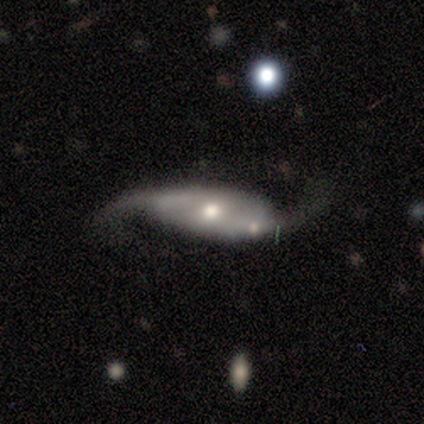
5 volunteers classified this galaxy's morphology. Volunteers were most divided on "merging": none: 60%, merger: 40%, minor disturbance: 0%, major disturbance: 0%. More confident: edge-on disk — no (100%); spiral arms — yes (100%); spiral winding — loose (100%); spiral arm count — 2 (100%); smooth or featured — featured or disk (80%); bar — no (75%); bulge size — moderate (75%).